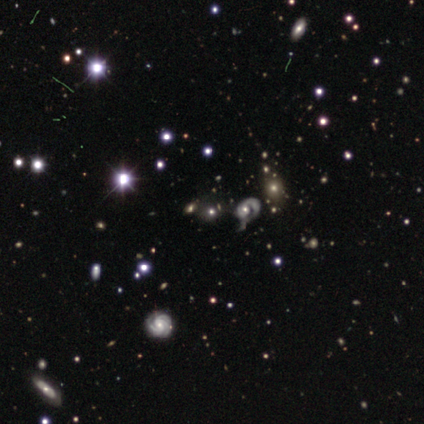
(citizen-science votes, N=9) Volunteers were most divided on "smooth or featured": star or artifact: 67%, featured or disk: 22%, smooth: 11%.